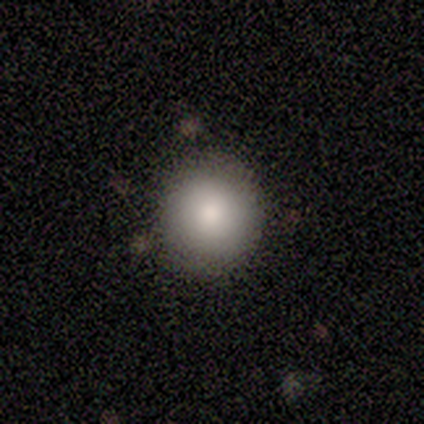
Q: Smooth or featured?
A: smooth (75%); runner-up: featured or disk (25%)
Q: How rounded?
A: round (100%)
Q: Merging?
A: none (100%)